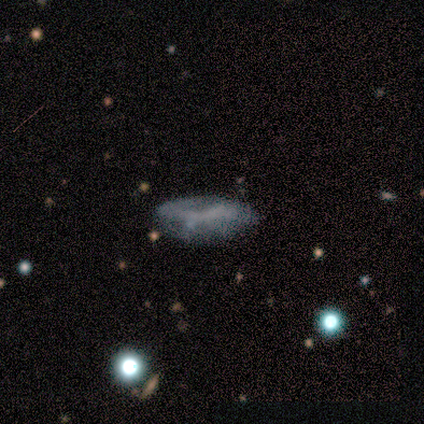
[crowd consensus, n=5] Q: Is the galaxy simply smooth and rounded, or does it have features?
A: smooth — 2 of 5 (40%, tied with featured or disk).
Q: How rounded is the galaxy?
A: in between — 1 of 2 (50%, tied with cigar-shaped).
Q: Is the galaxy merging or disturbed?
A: none — 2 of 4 (50%, tied with major disturbance).